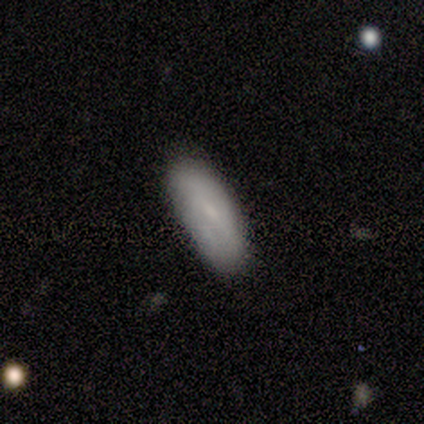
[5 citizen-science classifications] Smooth or featured?
  - smooth: 60% *
  - featured or disk: 40%
  - star or artifact: 0%
How rounded?
  - in between: 67% *
  - cigar-shaped: 33%
  - round: 0%
Merging?
  - none: 100% *
  - minor disturbance: 0%
  - major disturbance: 0%
  - merger: 0%